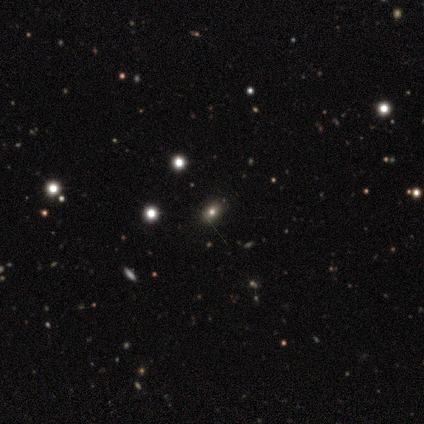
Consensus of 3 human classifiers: smooth_or_featured: star or artifact (p=0.67) [alt: featured or disk p=0.33]